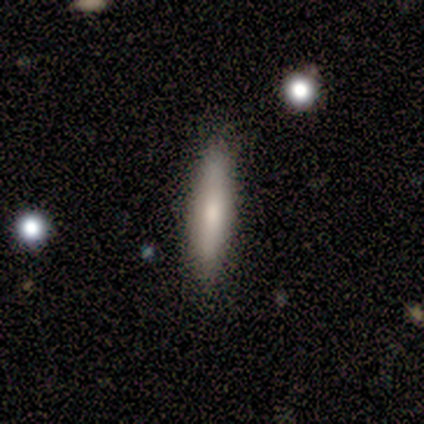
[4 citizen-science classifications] smooth-or-featured: featured or disk: 75% | smooth: 25% | star or artifact: 0%
  disk-edge-on: yes: 100% | no: 0%
    edge-on-bulge: rounded: 67% | none: 33% | boxy: 0%
  merging: none: 100% | minor disturbance: 0% | major disturbance: 0% | merger: 0%